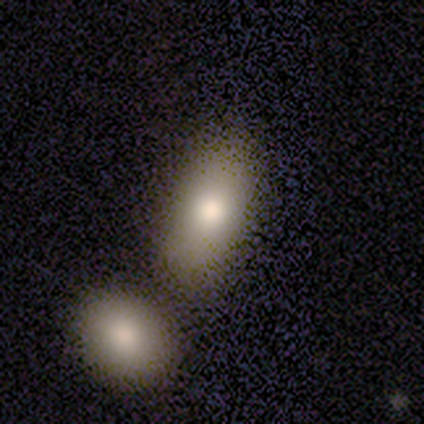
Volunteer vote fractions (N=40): Smooth or featured? 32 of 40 (80%) said smooth. How rounded? 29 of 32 (91%) said in between. Merging? 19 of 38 (50%) said merger.